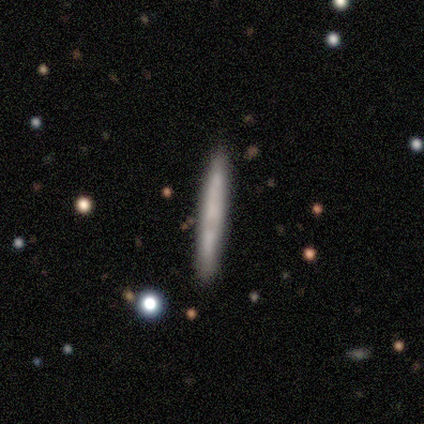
Smooth or featured? smooth (88%)
How rounded? cigar-shaped (100%)
Merging? none (88%)